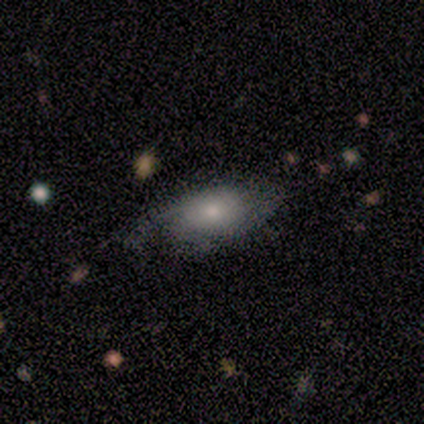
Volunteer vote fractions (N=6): This appears to be a smooth galaxy with no disk features (50%, tied with featured or disk) that is in between round and cigar-shaped (67%). Merging: none (50%).